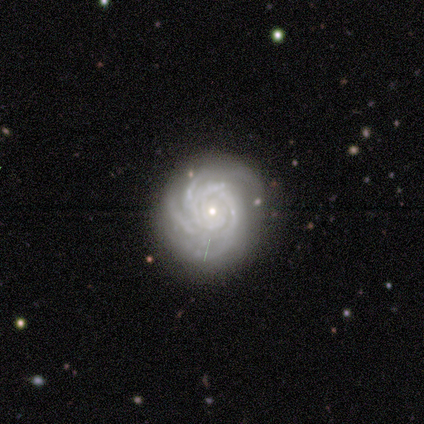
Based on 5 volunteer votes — This is clearly a featured or disk galaxy (100%). It is clearly not viewed edge-on (100%). Bar: clearly no (100%). Spiral arm pattern: clearly yes (100%). Spiral arm count: marginally 3 (40%, tied with can't tell). Spiral winding: clearly tight (100%). Central bulge: clearly small (100%). Merging: clearly none (100%).